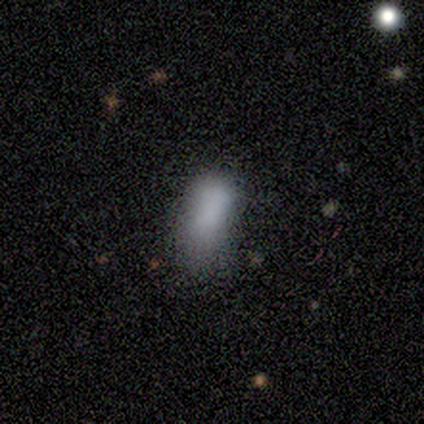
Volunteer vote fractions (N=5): Overall: smooth (100%). How rounded: in between (80%). Merging: minor disturbance (40%, tied with major disturbance).